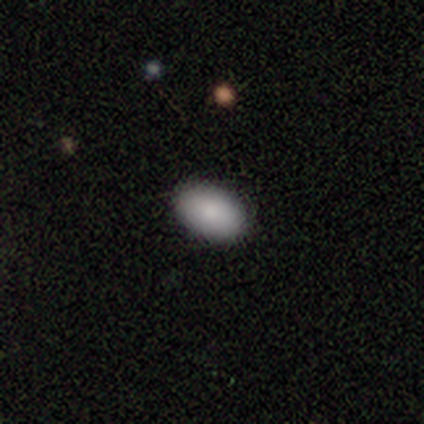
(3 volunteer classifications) A smooth galaxy with no disk features (100%) that is in between round and cigar-shaped (100%).

Vote fractions:
- Smooth or featured? smooth: 100% / featured or disk: 0% / star or artifact: 0%
- How rounded? in between: 100% / round: 0% / cigar-shaped: 0%
- Merging? none: 100% / minor disturbance: 0% / major disturbance: 0% / merger: 0%